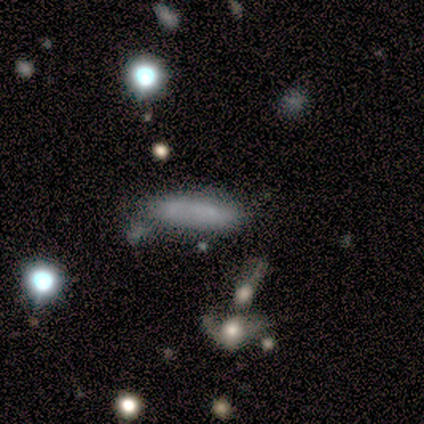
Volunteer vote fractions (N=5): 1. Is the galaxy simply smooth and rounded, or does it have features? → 60% smooth, 40% star or artifact, 0% featured or disk.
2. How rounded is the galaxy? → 100% cigar-shaped, 0% round, 0% in between.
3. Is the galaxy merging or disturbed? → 67% none, 33% minor disturbance, 0% major disturbance, 0% merger.